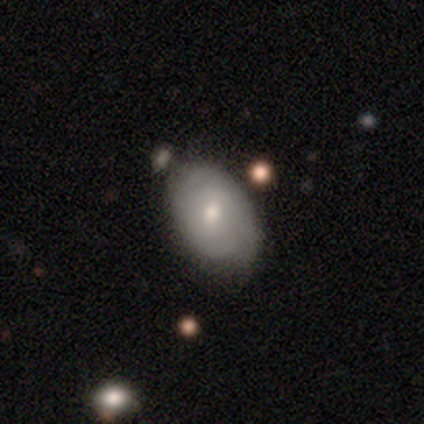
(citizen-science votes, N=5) This appears to be a featured or disk galaxy (60%) with a weak bar (67%), 2 (50%, tied with can't tell) tight (100%) spiral arms (67%) and a large central bulge (33%, tied with moderate and small). Merging: none (60%).